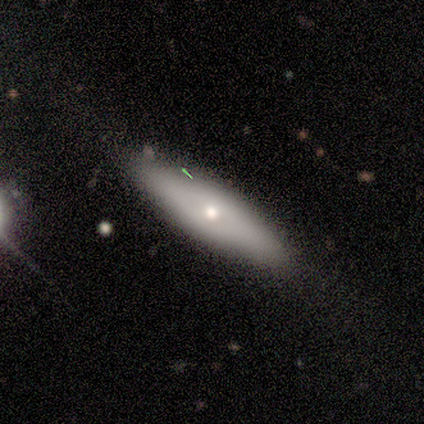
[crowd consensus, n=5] Smooth or featured? smooth (80%)
How rounded? in between (75%)
Merging? none (100%)